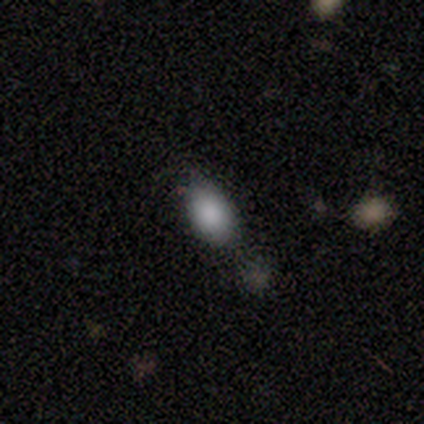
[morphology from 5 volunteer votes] Overall: smooth (100%). How rounded: in between (100%). Merging: none (60%; minor disturbance 20%).